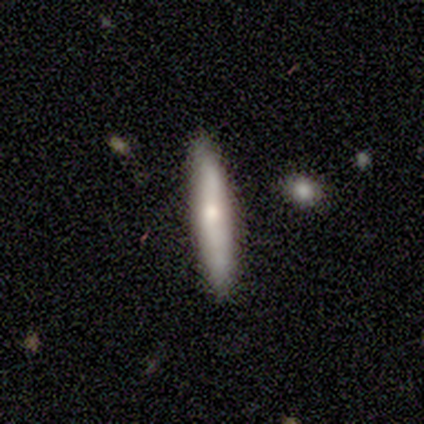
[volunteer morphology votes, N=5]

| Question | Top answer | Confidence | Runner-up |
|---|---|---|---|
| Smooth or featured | smooth | 40% | tied: featured or disk (40%) |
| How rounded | cigar-shaped | 100% | — |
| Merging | none | 75% | minor disturbance (25%) |